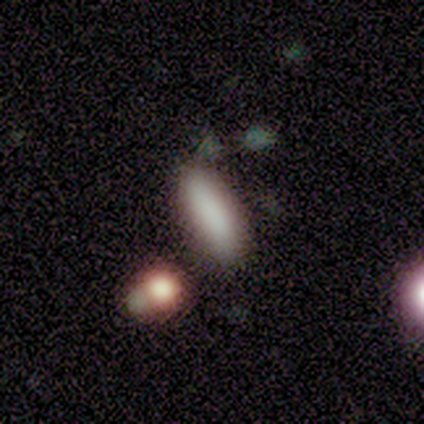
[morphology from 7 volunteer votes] smooth_or_featured: smooth (p=0.71) [alt: star or artifact p=0.29]
how_rounded: in between (p=1.00)
merging: none (p=0.80) [alt: major disturbance p=0.20]